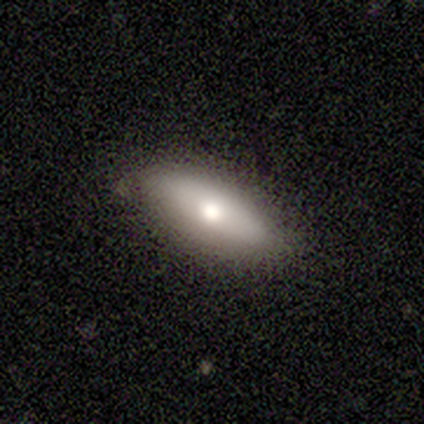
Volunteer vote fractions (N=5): Morphology: type=smooth (80%); roundness=in between (100%); merging=none (80%).